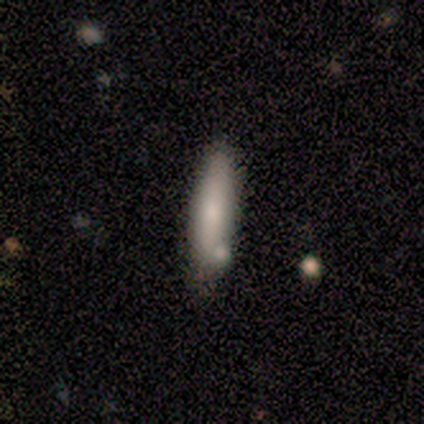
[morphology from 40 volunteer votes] Overall: smooth (80%). How rounded: cigar-shaped (88%). Merging: none (59%; minor disturbance 23%).